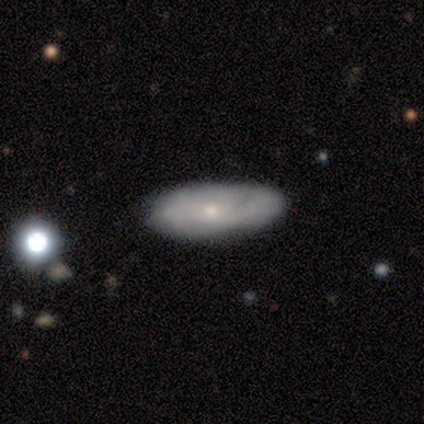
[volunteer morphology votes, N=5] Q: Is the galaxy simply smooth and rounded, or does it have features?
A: smooth — 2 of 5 (40%, tied with featured or disk).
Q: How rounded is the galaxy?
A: in between — 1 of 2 (50%, tied with cigar-shaped).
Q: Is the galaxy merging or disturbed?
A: none — 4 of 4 (100%).